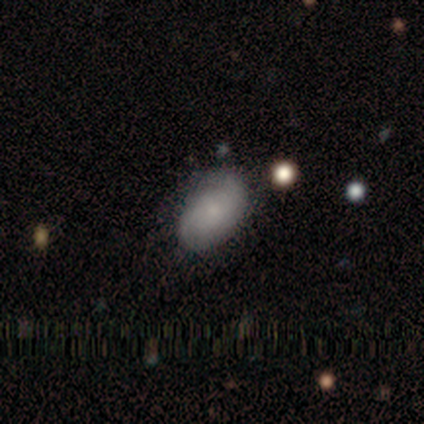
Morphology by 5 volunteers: smooth-or-featured: featured or disk: 80% | smooth: 20% | star or artifact: 0%
  disk-edge-on: no: 100% | yes: 0%
    bar: no: 75% | strong: 25% | weak: 0%
    has-spiral-arms: yes: 100% | no: 0%
      spiral-winding: tight: 75% | loose: 25% | medium: 0%
      spiral-arm-count: 2: 75% | can't tell: 25% | 1: 0% | 3: 0% | 4: 0% | more than 4: 0%
    bulge-size: small: 50% | dominant: 25% | none: 25% | large: 0% | moderate: 0%
  merging: none: 60% | minor disturbance: 40% | major disturbance: 0% | merger: 0%